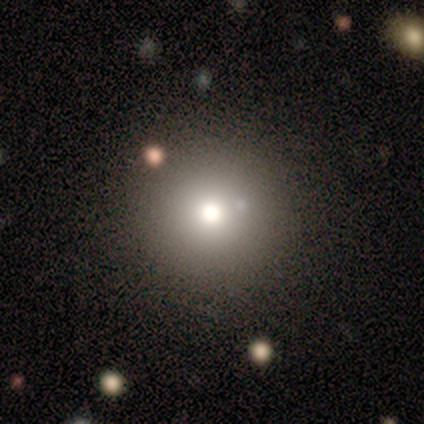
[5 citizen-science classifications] This is likely a smooth galaxy (60%). How rounded: clearly round (100%). Merging: clearly none (100%).